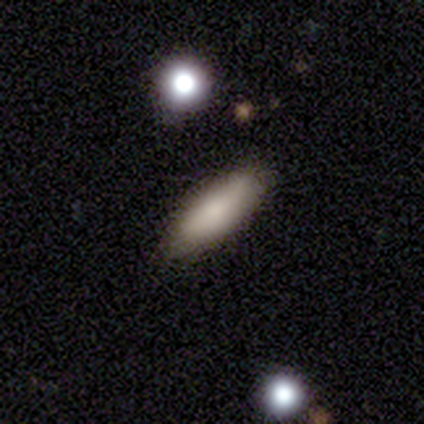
Smooth or featured?
  - smooth: 100% *
  - featured or disk: 0%
  - star or artifact: 0%
How rounded?
  - in between: 50% * (tied)
  - cigar-shaped: 50% * (tied)
  - round: 0%
Merging?
  - none: 100% *
  - minor disturbance: 0%
  - major disturbance: 0%
  - merger: 0%